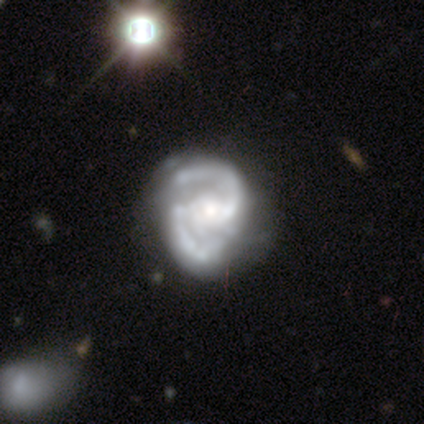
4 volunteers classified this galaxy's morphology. This appears to be a featured or disk galaxy (100%) with a weak bar (75%), 2 (100%) medium (50%) spiral arms (100%) and a moderate central bulge (75%). Merging: none (50%).